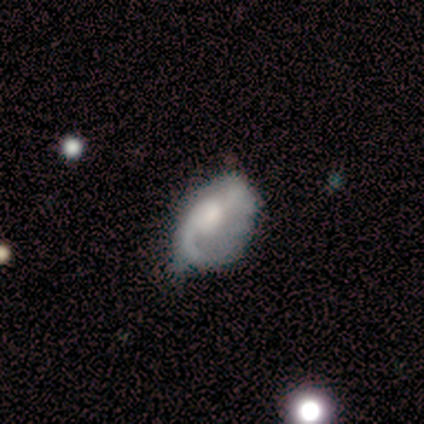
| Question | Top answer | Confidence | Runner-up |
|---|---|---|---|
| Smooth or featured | featured or disk | 72% | smooth (21%) |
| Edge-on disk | no | 100% | — |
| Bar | no | 74% | weak (19%) |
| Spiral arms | yes | 94% | no (6%) |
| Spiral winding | loose | 55% | medium (34%) |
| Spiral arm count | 2 | 48% | 1 (41%) |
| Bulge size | moderate | 48% | large (26%) |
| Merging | none | 48% | minor disturbance (38%) |